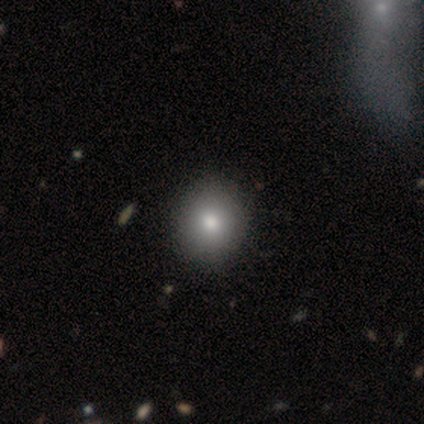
Smooth or featured? smooth (80%)
How rounded? in between (75%)
Merging? none (75%)